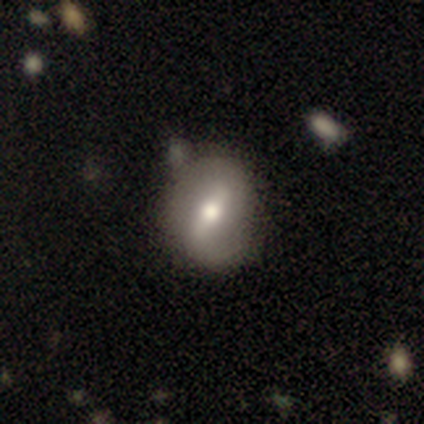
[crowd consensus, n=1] Consensus on every question: smooth or featured — featured or disk (100%); edge-on disk — no (100%); bar — strong (100%); spiral arms — no (100%); bulge size — moderate (100%); merging — none (100%).